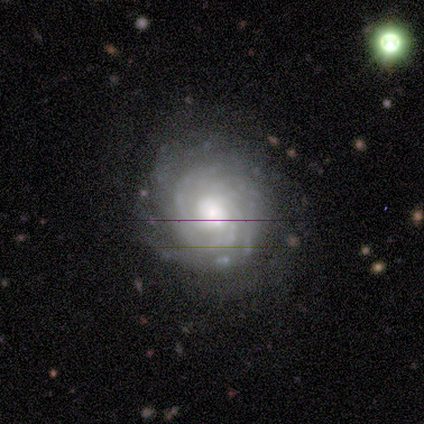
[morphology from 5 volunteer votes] This appears to be a featured or disk galaxy (80%) with no bar (100%), tight (67%) spiral arms (75%) and a moderate central bulge (75%). Merging: none (100%).